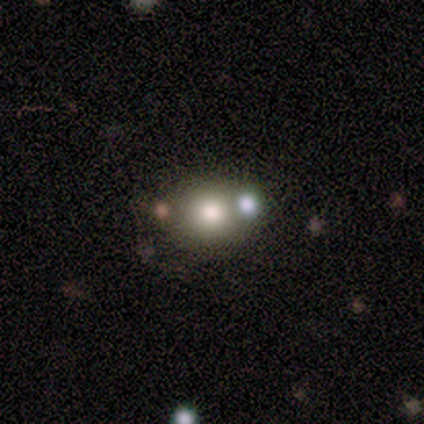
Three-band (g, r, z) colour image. It shows a smooth galaxy with no disk features (100%) that is round (60%). Merging: merger (60%).